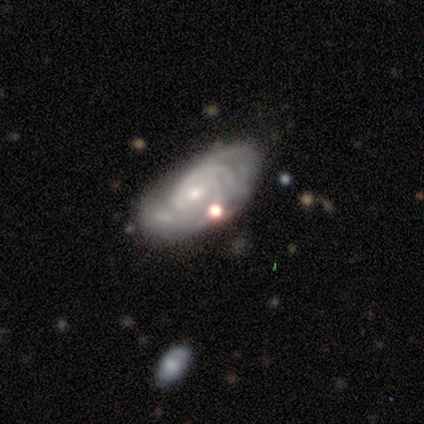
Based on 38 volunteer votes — A featured or disk galaxy (89%) with no bar (58%), tight (73%) spiral arms (97%) and a small central bulge (87%).

Vote fractions:
- Smooth or featured? featured or disk: 89% / smooth: 8% / star or artifact: 3%
- Edge-on disk? no: 91% / yes: 9%
- Bar? no: 58% / weak: 35% / strong: 6%
- Spiral arms? yes: 97% / no: 3%
- Spiral winding? tight: 73% / medium: 27% / loose: 0%
- Spiral arm count? can't tell: 37% / 3: 17% / 4: 17% / 2: 13% / more than 4: 13% / 1: 3%
- Bulge size? small: 87% / moderate: 6% / none: 6% / dominant: 0% / large: 0%
- Merging? none: 70% / minor disturbance: 16% / merger: 8% / major disturbance: 5%